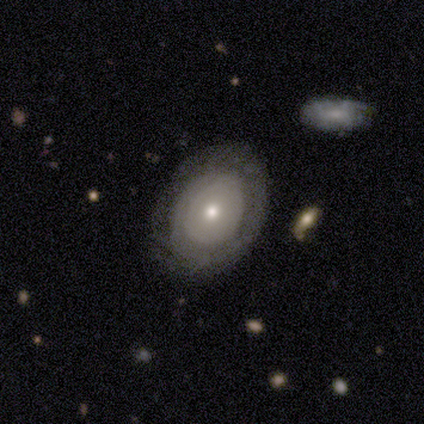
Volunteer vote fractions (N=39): A smooth galaxy with no disk features (51%) that is in between round and cigar-shaped (60%). Merging: none (74%).